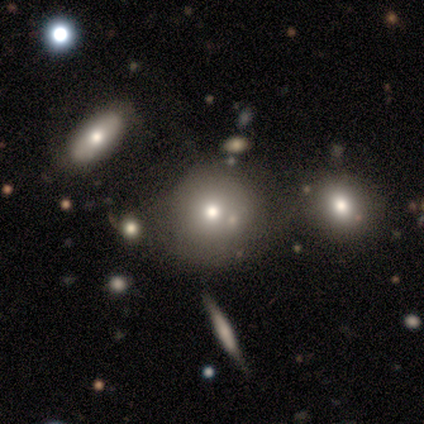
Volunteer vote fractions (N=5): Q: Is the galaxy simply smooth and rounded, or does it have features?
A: smooth — 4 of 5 (80%).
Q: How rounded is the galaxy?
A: round — 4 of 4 (100%).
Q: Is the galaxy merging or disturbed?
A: none — 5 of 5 (100%).